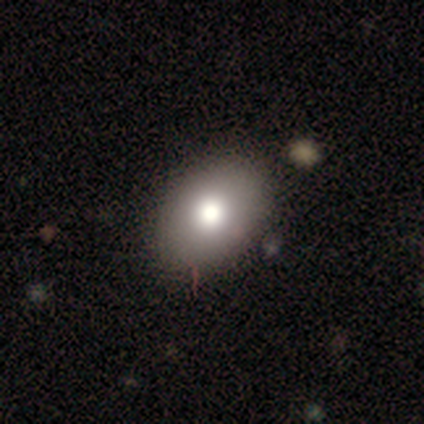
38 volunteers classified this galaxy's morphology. Overall: smooth (79%). How rounded: in between (97%). Merging: none (45%; minor disturbance 11%).